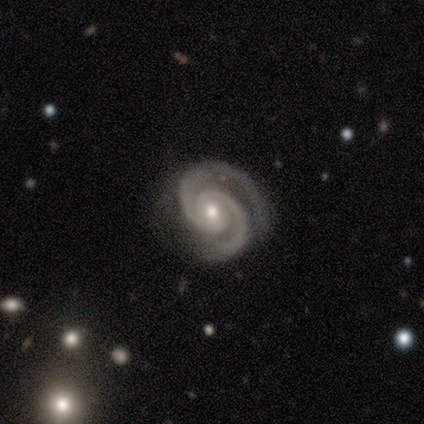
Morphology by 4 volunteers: Smooth or featured: featured or disk — 100%
Edge-on disk: no — 100%
Bar: no — 100%
Spiral arms: yes — 100%
Spiral winding: tight — 75% (medium — 25%)
Spiral arm count: 2 — 75% (3 — 25%)
Bulge size: moderate — 50% (tied with small — 50%)
Merging: none — 75% (minor disturbance — 25%)